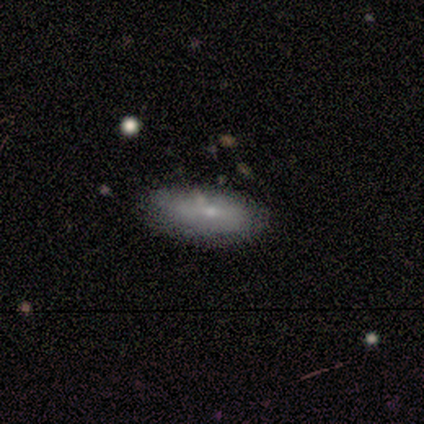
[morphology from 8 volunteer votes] Smooth or featured?
  - smooth: 62% *
  - featured or disk: 38%
  - star or artifact: 0%
How rounded?
  - in between: 80% *
  - cigar-shaped: 20%
  - round: 0%
Merging?
  - none: 88% *
  - minor disturbance: 12%
  - major disturbance: 0%
  - merger: 0%